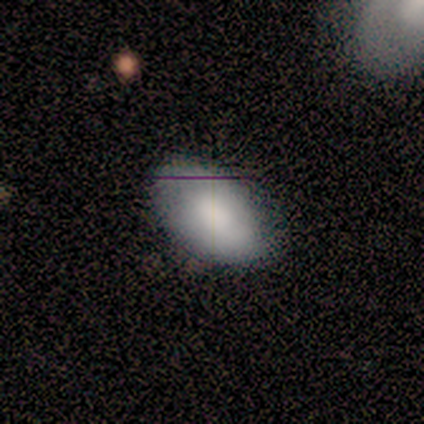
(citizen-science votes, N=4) Smooth or featured? 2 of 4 (50%, tied with featured or disk) said smooth. How rounded? 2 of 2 (100%) said in between. Merging? 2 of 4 (50%, tied with minor disturbance) said none.